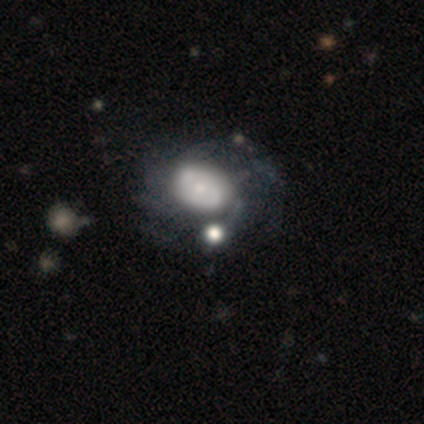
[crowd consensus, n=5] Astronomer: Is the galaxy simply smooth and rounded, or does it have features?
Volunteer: smooth — 60% (runner-up: featured or disk, 40%).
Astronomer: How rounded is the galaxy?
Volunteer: in between — 100%.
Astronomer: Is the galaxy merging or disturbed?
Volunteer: merger — 40% (runner-up: none, 20%).